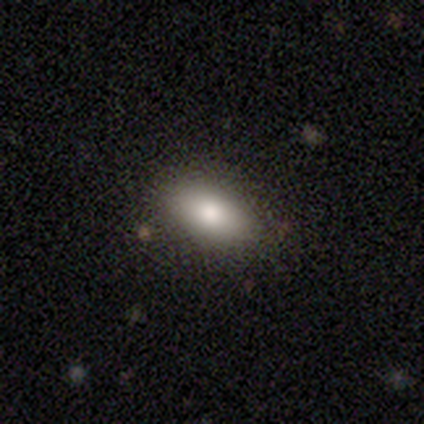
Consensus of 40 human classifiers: Smooth or featured: smooth — 90% (featured or disk — 10%)
How rounded: in between — 97% (cigar-shaped — 3%)
Merging: none — 70% (minor disturbance — 5%)